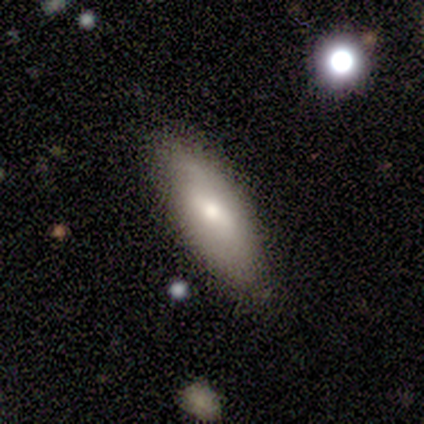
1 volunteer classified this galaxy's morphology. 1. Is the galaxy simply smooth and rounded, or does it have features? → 100% smooth, 0% featured or disk, 0% star or artifact.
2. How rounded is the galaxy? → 100% cigar-shaped, 0% round, 0% in between.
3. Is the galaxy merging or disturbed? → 100% none, 0% minor disturbance, 0% major disturbance, 0% merger.